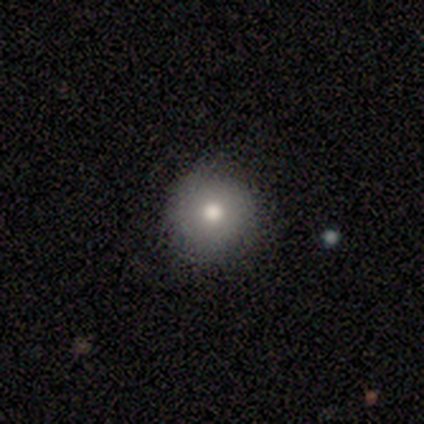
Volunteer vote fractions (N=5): Smooth or featured: smooth — 80% (star or artifact — 20%)
How rounded: round — 100%
Merging: none — 75% (minor disturbance — 25%)